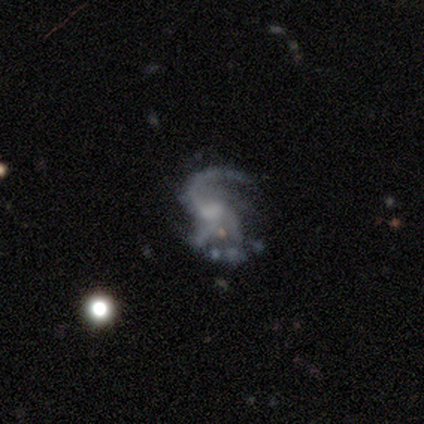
A featured or disk galaxy (75%) with no bar (100%), 3 (67%) tight (33%, tied with medium and loose) spiral arms (100%) and no central bulge (67%).

Vote fractions:
- Smooth or featured? featured or disk: 75% / smooth: 25% / star or artifact: 0%
- Edge-on disk? no: 100% / yes: 0%
- Bar? no: 100% / strong: 0% / weak: 0%
- Spiral arms? yes: 100% / no: 0%
- Spiral winding? tight: 33% (tied) / medium: 33% (tied) / loose: 33% (tied)
- Spiral arm count? 3: 67% / 1: 33% / 2: 0% / 4: 0% / more than 4: 0% / can't tell: 0%
- Bulge size? none: 67% / moderate: 33% / dominant: 0% / large: 0% / small: 0%
- Merging? minor disturbance: 50% / none: 25% / merger: 25% / major disturbance: 0%